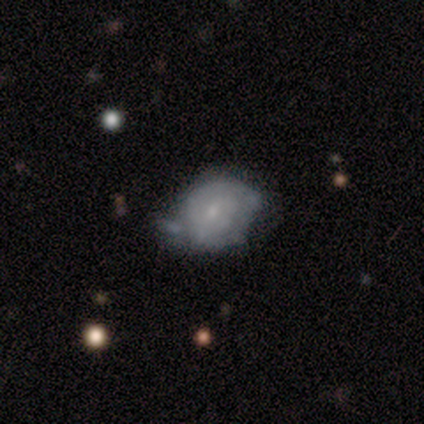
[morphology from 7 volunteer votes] Overall: featured or disk (57%; smooth 29%). Edge-on disk: no (100%). Bar: weak (50%, tied with no). Spiral arms: yes (50%, tied with no). Spiral arm count: 1 (50%, tied with can't tell). Spiral winding: tight (50%, tied with loose). Bulge size: small (75%). Merging: minor disturbance (67%).